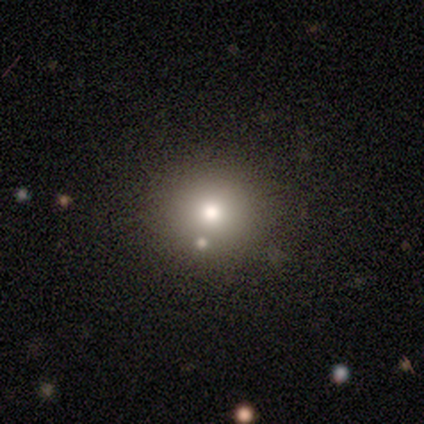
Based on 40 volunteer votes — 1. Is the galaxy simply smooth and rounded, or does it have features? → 75% smooth, 15% featured or disk, 10% star or artifact.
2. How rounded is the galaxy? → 90% round, 10% in between, 0% cigar-shaped.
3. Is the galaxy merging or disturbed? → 64% none, 11% minor disturbance, 8% merger, 6% major disturbance.